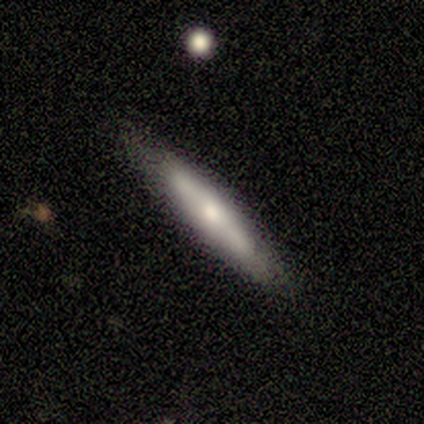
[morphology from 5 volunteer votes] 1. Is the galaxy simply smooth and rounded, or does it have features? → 80% featured or disk, 20% smooth, 0% star or artifact.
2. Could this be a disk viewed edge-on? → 75% yes, 25% no.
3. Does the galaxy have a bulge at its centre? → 67% rounded, 33% boxy, 0% none.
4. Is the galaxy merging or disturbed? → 60% none, 40% minor disturbance, 0% major disturbance, 0% merger.